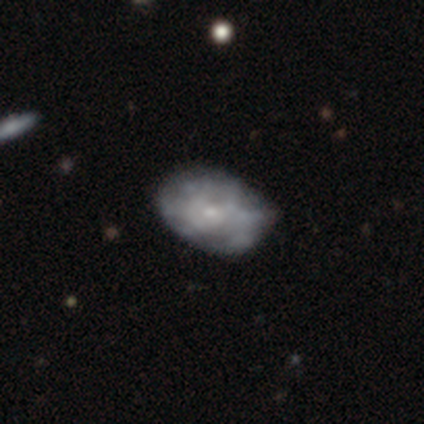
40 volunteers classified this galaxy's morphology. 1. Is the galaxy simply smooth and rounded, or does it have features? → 60% featured or disk, 35% smooth, 5% star or artifact.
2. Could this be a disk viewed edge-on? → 100% no, 0% yes.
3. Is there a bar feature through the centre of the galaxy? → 79% no, 21% weak, 0% strong.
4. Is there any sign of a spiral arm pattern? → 79% no, 21% yes.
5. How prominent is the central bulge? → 100% small, 0% dominant, 0% large, 0% moderate, 0% none.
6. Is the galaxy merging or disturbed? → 58% none, 37% minor disturbance, 5% major disturbance, 0% merger.